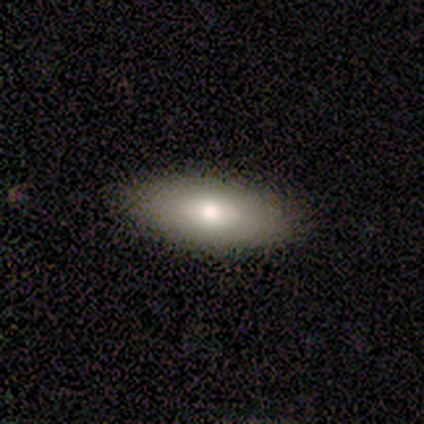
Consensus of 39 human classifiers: Smooth or featured?
  - smooth: 82% *
  - featured or disk: 15%
  - star or artifact: 3%
How rounded?
  - in between: 78% *
  - cigar-shaped: 22%
  - round: 0%
Merging?
  - none: 92% *
  - minor disturbance: 8%
  - major disturbance: 0%
  - merger: 0%